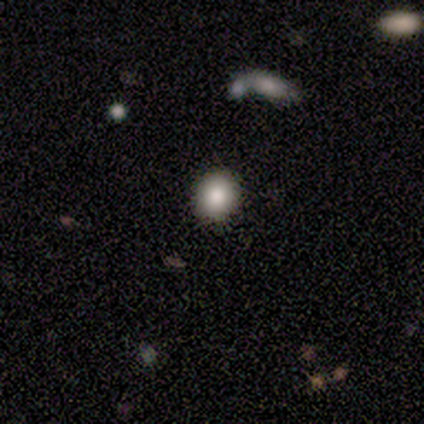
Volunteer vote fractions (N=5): This is likely a smooth galaxy (60%). How rounded: clearly round (100%). Merging: clearly none (100%).